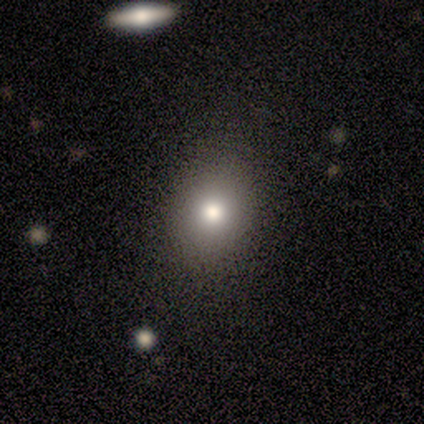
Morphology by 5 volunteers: Smooth or featured? smooth (80%)
How rounded? in between (75%)
Merging? none (80%)